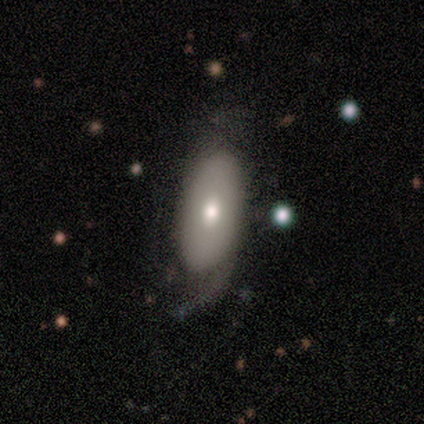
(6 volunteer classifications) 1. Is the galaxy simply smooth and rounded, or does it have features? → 50% smooth, 33% star or artifact, 17% featured or disk.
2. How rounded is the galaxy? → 67% in between, 33% round, 0% cigar-shaped.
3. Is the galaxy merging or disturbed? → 75% major disturbance, 25% minor disturbance, 0% none, 0% merger.